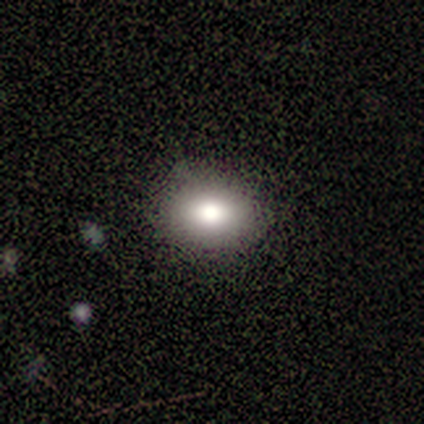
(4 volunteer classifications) A smooth galaxy with no disk features (100%) that is in between round and cigar-shaped (75%). Merging: none (75%).